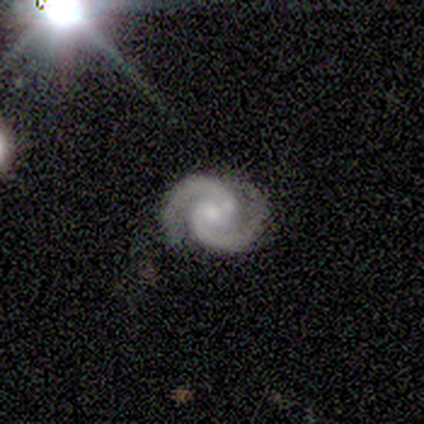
Overall: featured or disk (100%). Edge-on disk: no (100%). Bar: weak (60%; strong 20%). Spiral arms: yes (100%). Spiral arm count: 2 (100%). Spiral winding: medium (80%). Bulge size: moderate (60%; small 40%). Merging: none (80%).